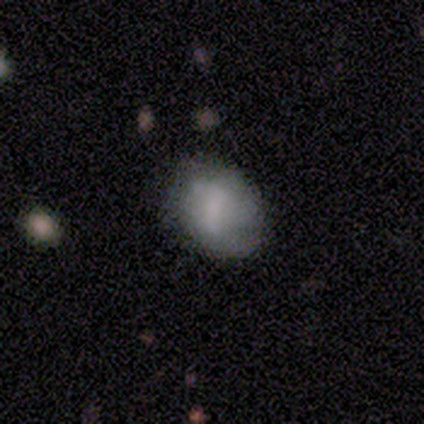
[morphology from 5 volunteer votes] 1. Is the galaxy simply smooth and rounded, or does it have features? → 60% smooth, 40% featured or disk, 0% star or artifact.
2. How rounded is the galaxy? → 67% in between, 33% round, 0% cigar-shaped.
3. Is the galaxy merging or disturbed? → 60% none, 20% minor disturbance, 20% major disturbance, 0% merger.